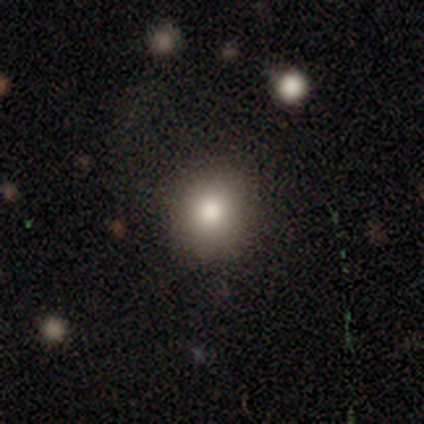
Q: Smooth or featured?
A: smooth (100%)
Q: How rounded?
A: round (80%); runner-up: in between (20%)
Q: Merging?
A: none (100%)